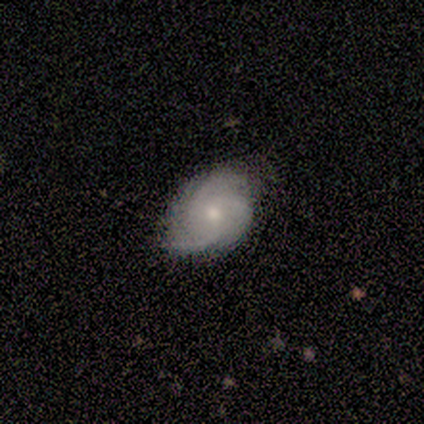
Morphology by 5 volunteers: smooth_or_featured: featured or disk (p=1.00)
disk_edge_on: no (p=0.80) [alt: yes p=0.20]
bar: no (p=1.00)
has_spiral_arms: yes (p=1.00)
spiral_winding: medium (p=0.75) [alt: tight p=0.25]
spiral_arm_count: 3 (p=0.50) [tied with: can't tell p=0.50]
bulge_size: moderate (p=1.00)
merging: none (p=0.80) [alt: minor disturbance p=0.20]